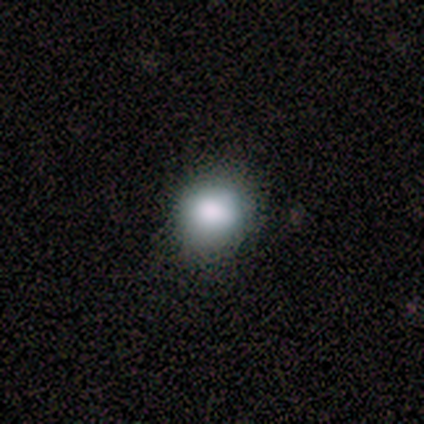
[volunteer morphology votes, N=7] Smooth or featured? 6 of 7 (86%) said smooth. How rounded? 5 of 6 (83%) said round. Merging? 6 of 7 (86%) said none.